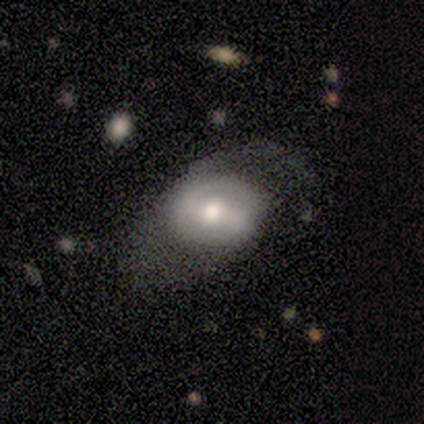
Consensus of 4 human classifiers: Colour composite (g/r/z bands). It shows a smooth galaxy with no disk features (50%, tied with featured or disk) that is round (100%). Merging: none (50%, tied with major disturbance).